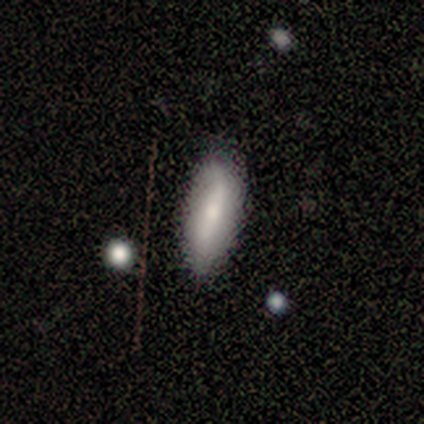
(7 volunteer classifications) smooth-or-featured: smooth: 57% | featured or disk: 43% | star or artifact: 0%
  how-rounded: in between: 75% | cigar-shaped: 25% | round: 0%
  merging: none: 71% | minor disturbance: 14% | major disturbance: 14% | merger: 0%